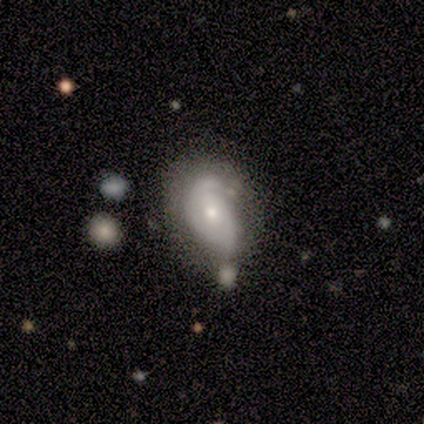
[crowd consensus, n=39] Morphology: type=featured or disk (67%); edge-on=no (96%); bar=no (64%); spiral arms=yes (88%); winding=tight (64%); arm count=2 (45%); bulge=small (68%); merging=none (39%).